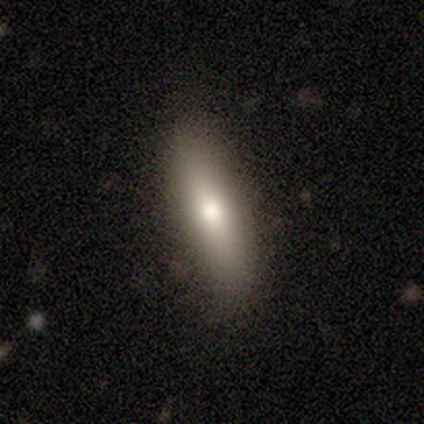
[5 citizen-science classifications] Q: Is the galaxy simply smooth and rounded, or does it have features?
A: smooth — 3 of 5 (60%).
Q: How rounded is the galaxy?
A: cigar-shaped — 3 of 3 (100%).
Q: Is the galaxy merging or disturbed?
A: none — 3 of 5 (60%).